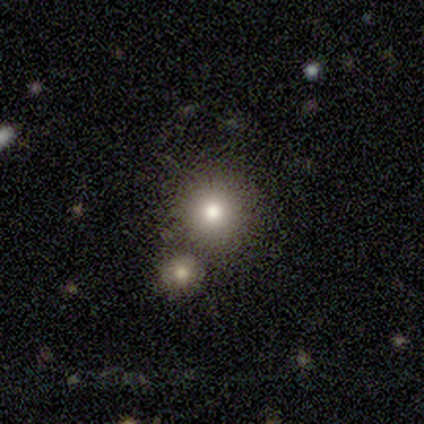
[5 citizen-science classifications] Q: Smooth or featured?
A: smooth (60%); runner-up: featured or disk (20%)
Q: How rounded?
A: round (100%)
Q: Merging?
A: none (75%); runner-up: merger (25%)